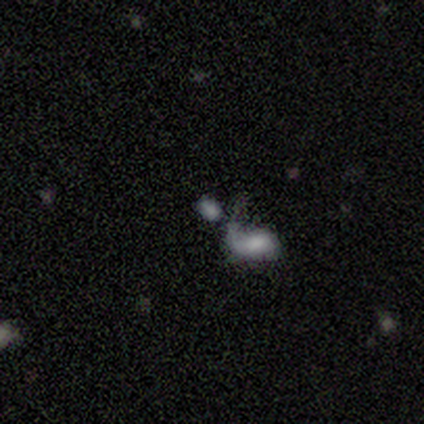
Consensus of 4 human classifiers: Overall: smooth (75%). How rounded: in between (67%; round 33%). Merging: none (100%).